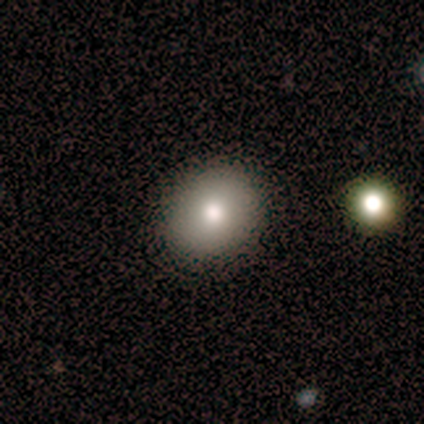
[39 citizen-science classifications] Smooth or featured?
  - smooth: 85% *
  - featured or disk: 13%
  - star or artifact: 3%
How rounded?
  - round: 82% *
  - in between: 18%
  - cigar-shaped: 0%
Merging?
  - none: 95% *
  - minor disturbance: 3%
  - merger: 3%
  - major disturbance: 0%